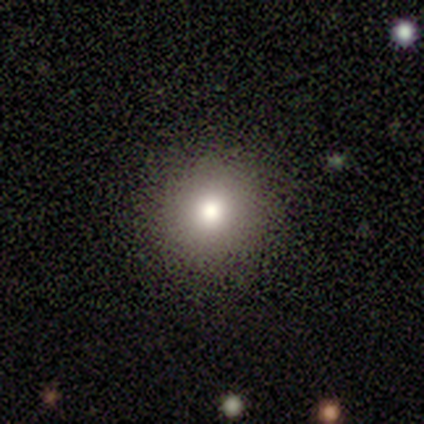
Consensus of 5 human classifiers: Smooth or featured? smooth (80%)
How rounded? round (100%)
Merging? none (80%)